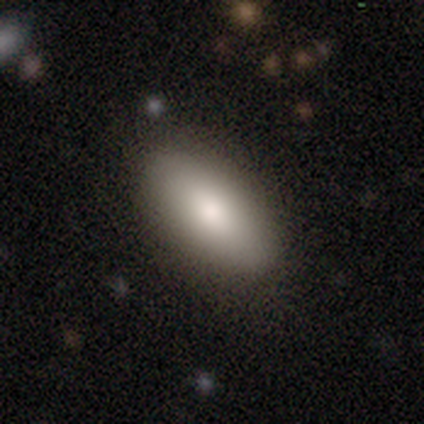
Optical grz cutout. It shows a smooth galaxy with no disk features (85%) that is in between round and cigar-shaped (90%). Merging: none (81%).